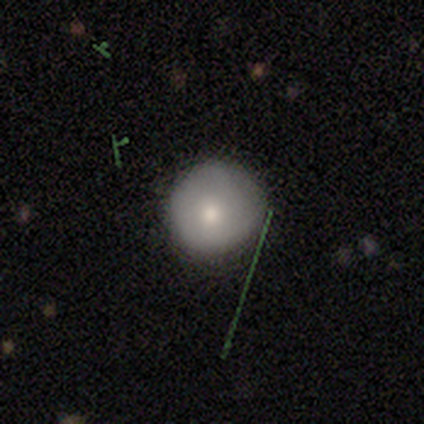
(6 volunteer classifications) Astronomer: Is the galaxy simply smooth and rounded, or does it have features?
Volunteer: smooth — 67%.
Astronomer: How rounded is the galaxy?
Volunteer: round — 100%.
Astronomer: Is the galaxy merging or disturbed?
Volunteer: none — 100%.